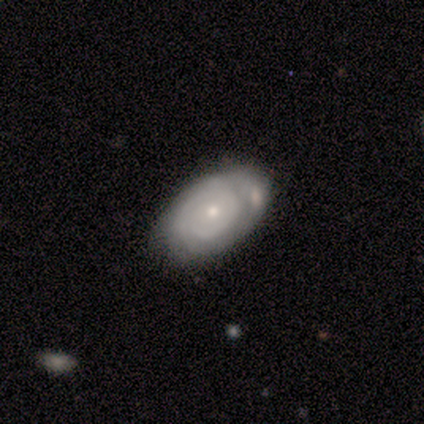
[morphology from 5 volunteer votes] A featured or disk galaxy (80%) with no bar (100%), tight (33%, tied with medium and loose) spiral arms (75%) and a small central bulge (100%).

Vote fractions:
- Smooth or featured? featured or disk: 80% / smooth: 20% / star or artifact: 0%
- Edge-on disk? no: 100% / yes: 0%
- Bar? no: 100% / strong: 0% / weak: 0%
- Spiral arms? yes: 75% / no: 25%
- Spiral winding? tight: 33% (tied) / medium: 33% (tied) / loose: 33% (tied)
- Spiral arm count? can't tell: 67% / 2: 33% / 1: 0% / 3: 0% / 4: 0% / more than 4: 0%
- Bulge size? small: 100% / dominant: 0% / large: 0% / moderate: 0% / none: 0%
- Merging? major disturbance: 40% (tied) / merger: 40% (tied) / none: 20% / minor disturbance: 0%